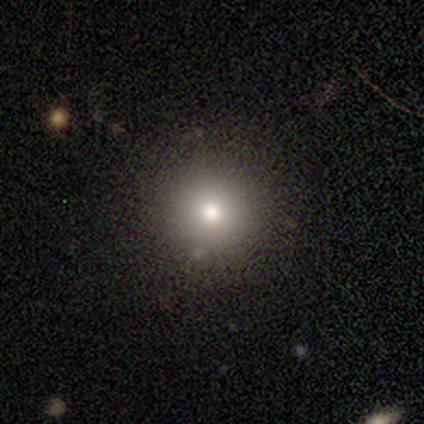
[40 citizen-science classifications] Overall: smooth (78%). How rounded: round (100%). Merging: none (82%).